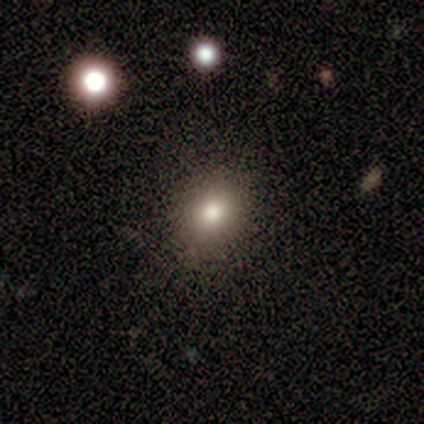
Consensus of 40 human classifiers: This appears to be a smooth galaxy with no disk features (80%) that is round (53%). Merging: none (83%).